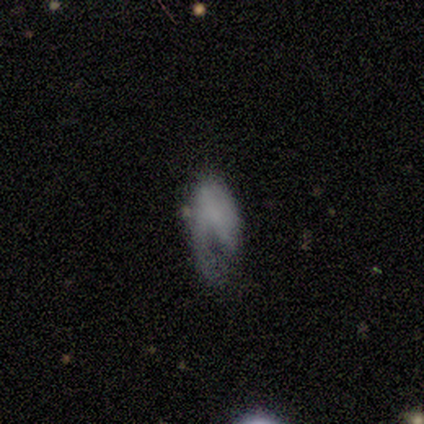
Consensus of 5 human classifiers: This appears to be a featured or disk galaxy (60%) with no bar (100%), 1 (100%) loose (100%) spiral arms (50%, tied with no) and no central bulge (100%). Merging: minor disturbance (80%).